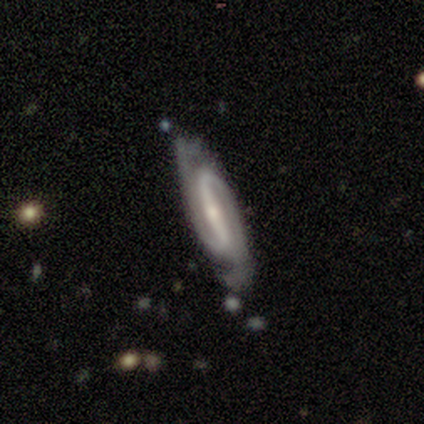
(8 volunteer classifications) A featured or disk galaxy (100%) with a strong bar (100%), 2 (71%) medium (71%) spiral arms (100%) and a small central bulge (86%). Merging: none (75%).